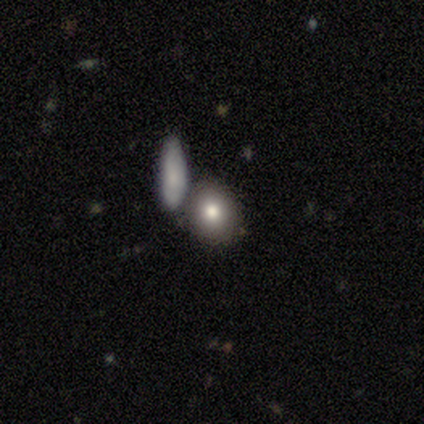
Smooth or featured? 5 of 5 (100%) said smooth. How rounded? 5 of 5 (100%) said round. Merging? 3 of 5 (60%) said none.